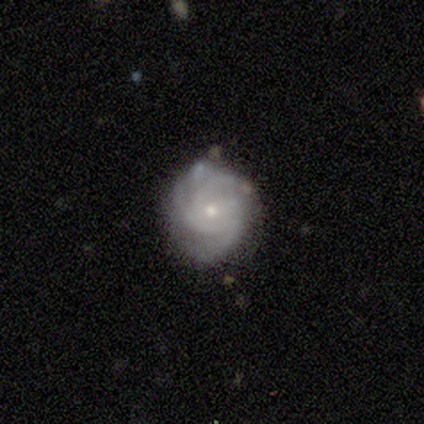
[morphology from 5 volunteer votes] Smooth or featured? featured or disk (100%)
Edge-on disk? no (100%)
Bar? no (80%)
Spiral arms? yes (100%)
Spiral winding? tight (80%)
Spiral arm count? can't tell (60%)
Bulge size? small (80%)
Merging? none (80%)